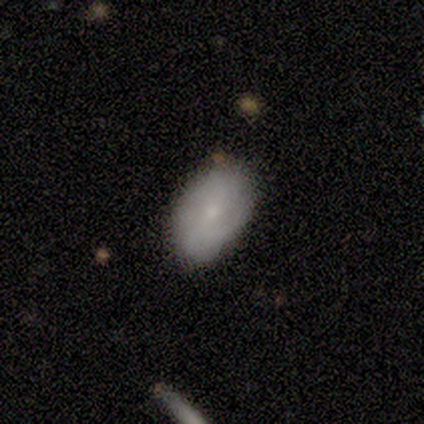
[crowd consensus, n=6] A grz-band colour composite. It shows a smooth galaxy with no disk features (83%) that is in between round and cigar-shaped (80%). Merging: none (100%).